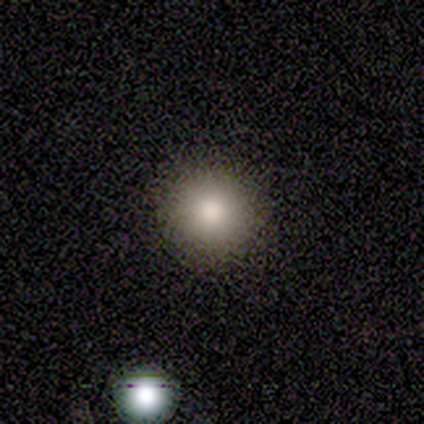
Smooth or featured? 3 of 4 (75%) said smooth. How rounded? 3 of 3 (100%) said round. Merging? 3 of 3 (100%) said none.